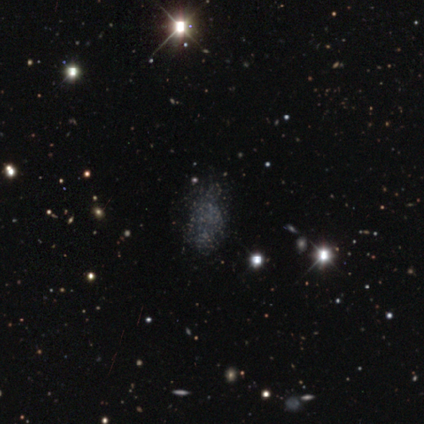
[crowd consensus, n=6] Q: Smooth or featured?
A: smooth (67%); runner-up: featured or disk (17%)
Q: How rounded?
A: in between (100%)
Q: Merging?
A: none (40%); tied with: minor disturbance (40%)